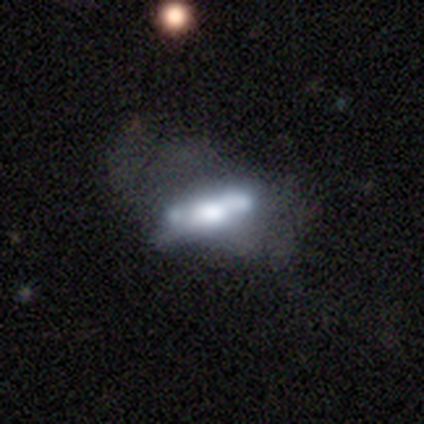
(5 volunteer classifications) Smooth or featured?
  - smooth: 60% *
  - featured or disk: 20%
  - star or artifact: 20%
How rounded?
  - in between: 67% *
  - cigar-shaped: 33%
  - round: 0%
Merging?
  - none: 50% * (tied)
  - merger: 50% * (tied)
  - minor disturbance: 0%
  - major disturbance: 0%